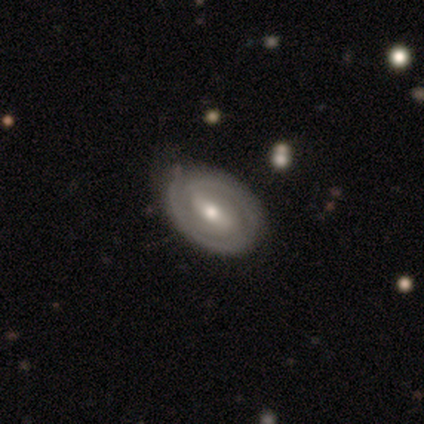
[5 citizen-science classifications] Smooth or featured: star or artifact — 60% (smooth — 20%)